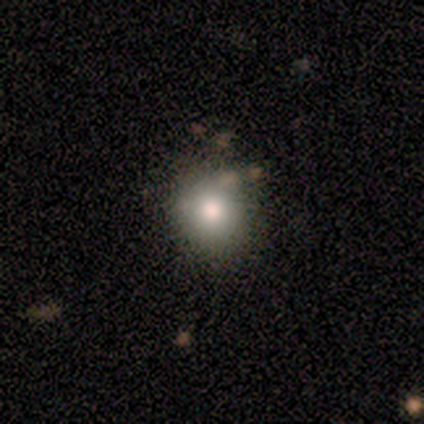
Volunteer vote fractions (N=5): This is likely a smooth galaxy (60%). How rounded: clearly round (100%). Merging: likely none (75%).